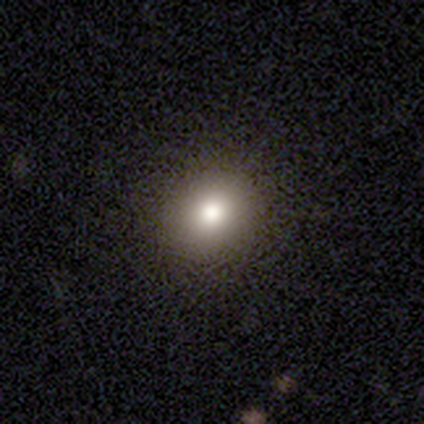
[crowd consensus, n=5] A smooth galaxy with no disk features (60%) that is round (100%). Merging: none (100%).